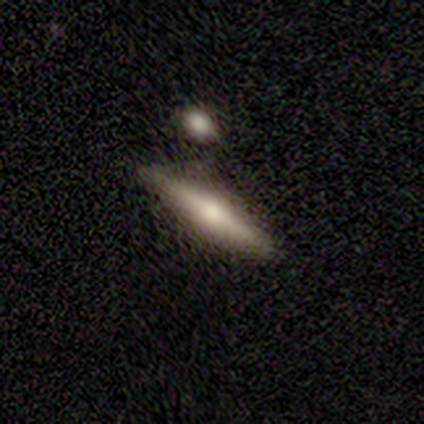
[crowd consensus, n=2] This is clearly a featured or disk galaxy (100%). It is clearly viewed edge-on (100%). Edge-on bulge: clearly rounded (100%). Merging: possibly none (50%, tied with minor disturbance).